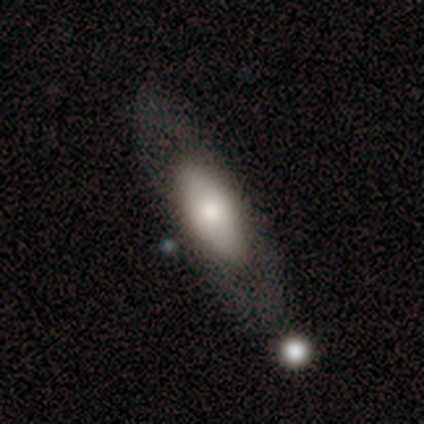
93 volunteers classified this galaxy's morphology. A smooth galaxy with no disk features (60%) that is in between round and cigar-shaped (89%). Merging: none (72%).